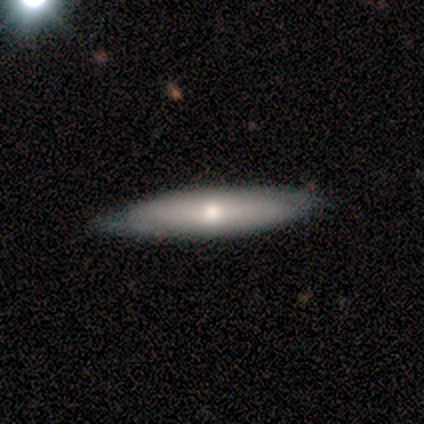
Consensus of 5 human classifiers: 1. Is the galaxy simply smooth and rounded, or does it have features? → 60% smooth, 40% featured or disk, 0% star or artifact.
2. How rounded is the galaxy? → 100% cigar-shaped, 0% round, 0% in between.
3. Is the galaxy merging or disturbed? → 100% none, 0% minor disturbance, 0% major disturbance, 0% merger.